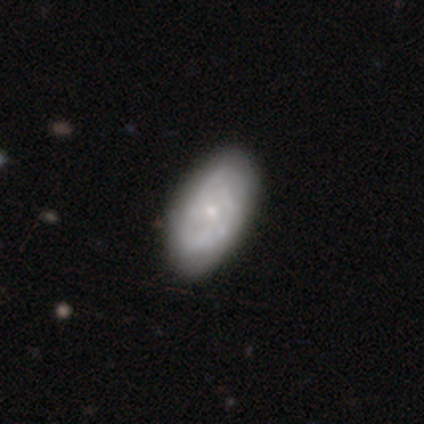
A featured or disk galaxy (67%) with no bar (100%), tight (100%) spiral arms (67%) and a small central bulge (100%).

Vote fractions:
- Smooth or featured? featured or disk: 67% / smooth: 33% / star or artifact: 0%
- Edge-on disk? no: 75% / yes: 25%
- Bar? no: 100% / strong: 0% / weak: 0%
- Spiral arms? yes: 67% / no: 33%
- Spiral winding? tight: 100% / medium: 0% / loose: 0%
- Spiral arm count? can't tell: 100% / 1: 0% / 2: 0% / 3: 0% / 4: 0% / more than 4: 0%
- Bulge size? small: 100% / dominant: 0% / large: 0% / moderate: 0% / none: 0%
- Merging? none: 67% / minor disturbance: 33% / major disturbance: 0% / merger: 0%